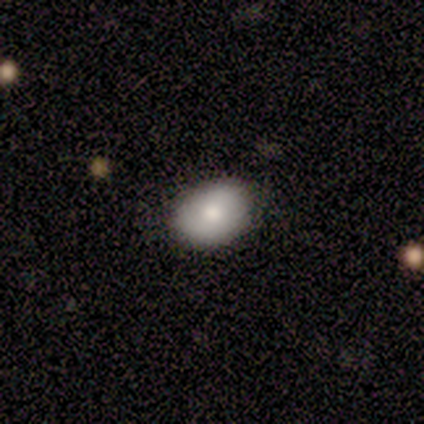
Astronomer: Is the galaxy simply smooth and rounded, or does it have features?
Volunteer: smooth — 100%.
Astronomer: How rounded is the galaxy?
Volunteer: in between — 80%.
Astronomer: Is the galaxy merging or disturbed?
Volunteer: none — 100%.